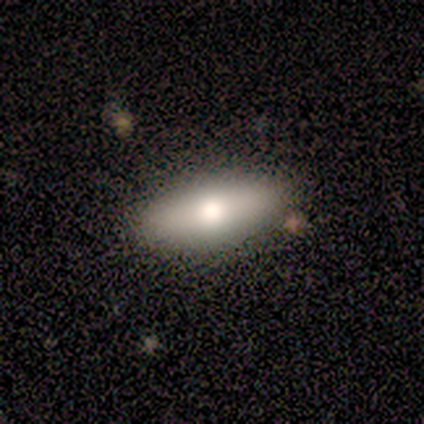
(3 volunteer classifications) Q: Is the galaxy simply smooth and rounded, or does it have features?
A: smooth — 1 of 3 (33%, tied with featured or disk and star or artifact).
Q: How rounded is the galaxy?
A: in between — 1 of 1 (100%).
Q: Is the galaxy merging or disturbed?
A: none — 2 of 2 (100%).